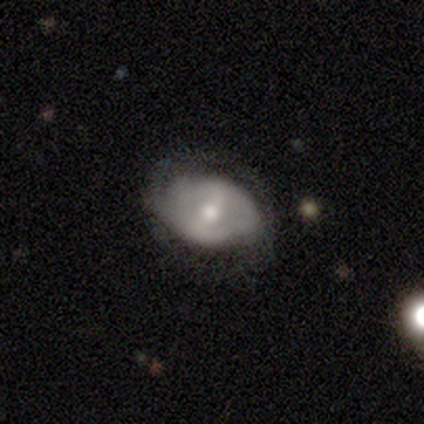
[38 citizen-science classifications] This appears to be a featured or disk galaxy (79%) with a weak bar (48%), 2 (73%) tight (50%) spiral arms (76%) and a moderate central bulge (76%). Merging: none (53%).